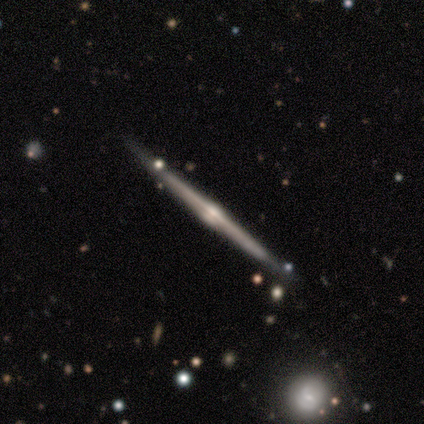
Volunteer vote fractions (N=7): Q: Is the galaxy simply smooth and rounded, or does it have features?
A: featured or disk — 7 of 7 (100%).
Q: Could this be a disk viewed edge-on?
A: yes — 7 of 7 (100%).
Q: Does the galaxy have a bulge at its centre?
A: rounded — 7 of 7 (100%).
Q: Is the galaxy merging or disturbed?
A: none — 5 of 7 (71%).